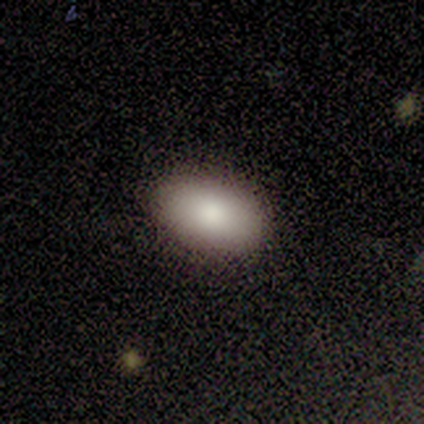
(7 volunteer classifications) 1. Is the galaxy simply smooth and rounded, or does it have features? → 100% smooth, 0% featured or disk, 0% star or artifact.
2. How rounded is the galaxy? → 100% in between, 0% round, 0% cigar-shaped.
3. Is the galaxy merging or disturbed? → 100% none, 0% minor disturbance, 0% major disturbance, 0% merger.